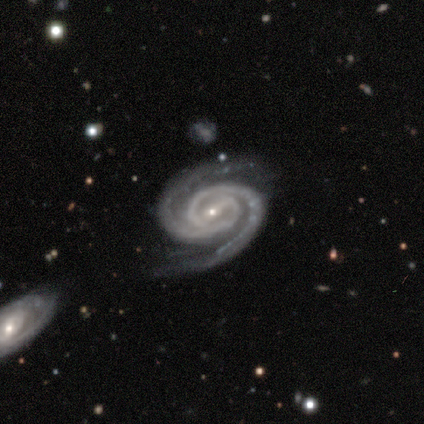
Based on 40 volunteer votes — A featured or disk galaxy (92%) with a weak bar (40%), 2 (94%) tight (83%) spiral arms (100%) and a small central bulge (91%).

Vote fractions:
- Smooth or featured? featured or disk: 92% / smooth: 5% / star or artifact: 2%
- Edge-on disk? no: 95% / yes: 5%
- Bar? weak: 40% / strong: 34% / no: 26%
- Spiral arms? yes: 100% / no: 0%
- Spiral winding? tight: 83% / medium: 17% / loose: 0%
- Spiral arm count? 2: 94% / 4: 3% / can't tell: 3% / 1: 0% / 3: 0% / more than 4: 0%
- Bulge size? small: 91% / moderate: 9% / dominant: 0% / large: 0% / none: 0%
- Merging? none: 79% / minor disturbance: 18% / major disturbance: 3% / merger: 0%